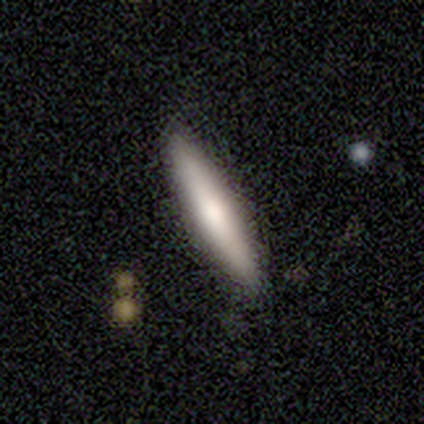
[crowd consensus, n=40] smooth_or_featured: smooth (p=0.65) [alt: featured or disk p=0.30]
how_rounded: cigar-shaped (p=0.92) [alt: in between p=0.08]
merging: none (p=0.92) [alt: minor disturbance p=0.08]